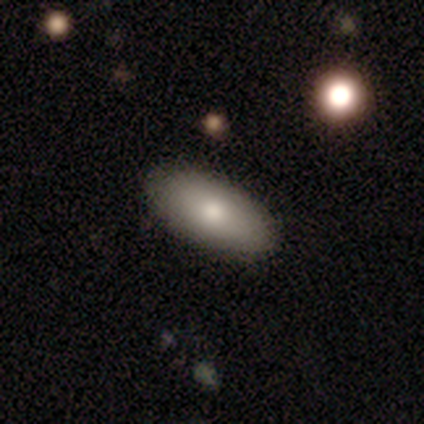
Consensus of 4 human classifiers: This is likely a smooth galaxy (75%). How rounded: clearly in between (100%). Merging: likely none (75%).